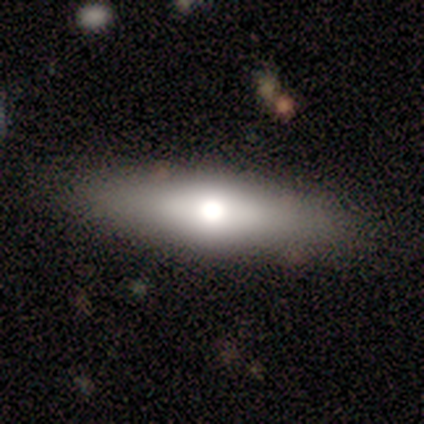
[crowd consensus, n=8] Q: Smooth or featured?
A: smooth (62%); runner-up: featured or disk (38%)
Q: How rounded?
A: cigar-shaped (60%); runner-up: round (20%)
Q: Merging?
A: none (100%)